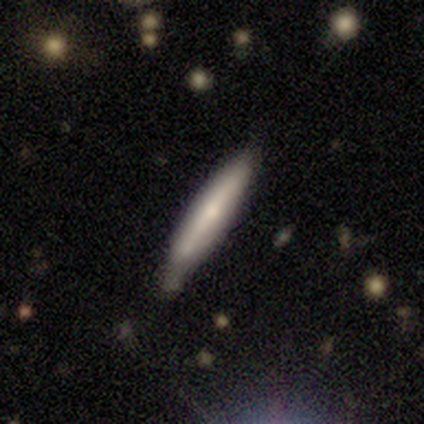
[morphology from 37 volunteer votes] This is likely a smooth galaxy (65%). How rounded: clearly cigar-shaped (96%). Merging: likely none (69%).